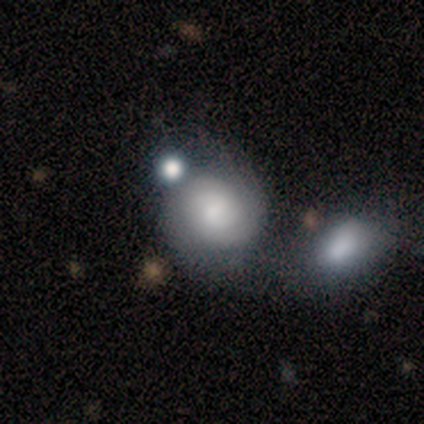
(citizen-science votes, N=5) smooth_or_featured: smooth (p=0.80) [alt: featured or disk p=0.20]
how_rounded: round (p=1.00)
merging: none (p=0.60) [alt: merger p=0.40]